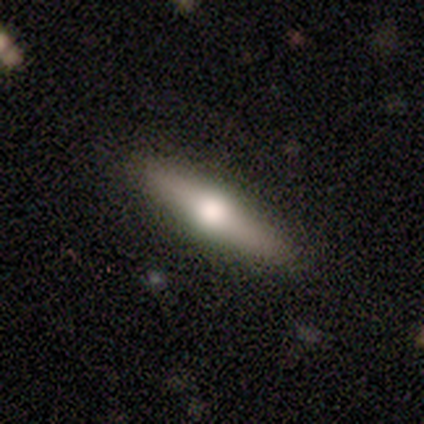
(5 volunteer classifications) Volunteers were most divided on "smooth or featured": smooth: 60%, featured or disk: 40%, star or artifact: 0%. More confident: merging — none (100%); how rounded — cigar-shaped (67%).